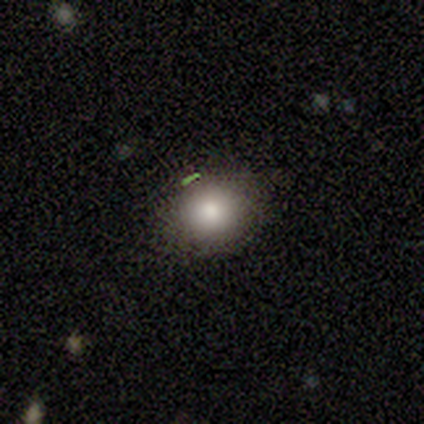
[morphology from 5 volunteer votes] This appears to be a smooth galaxy with no disk features (60%) that is round (100%). Merging: none (100%).